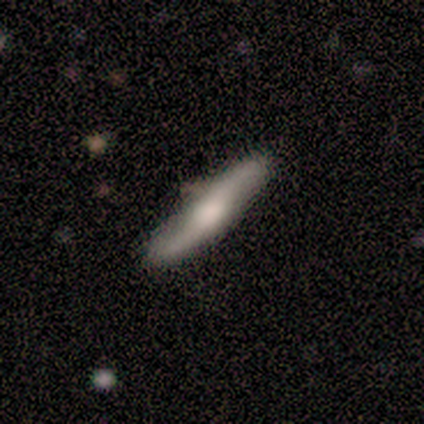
smooth 100%, featured or disk 0%, star or artifact 0%. Down the decision tree: how rounded — cigar-shaped (80%); merging — none (80%).